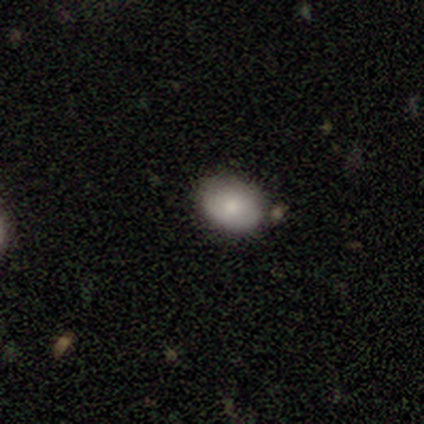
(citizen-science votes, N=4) Overall: smooth (100%). How rounded: in between (75%). Merging: none (75%).